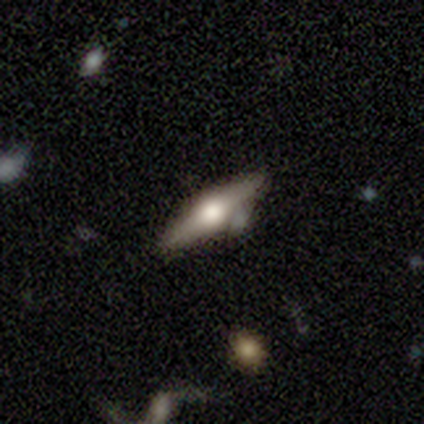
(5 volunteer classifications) Smooth or featured? featured or disk (80%)
Edge-on disk? yes (100%)
Edge-on bulge? rounded (100%)
Merging? none (80%)